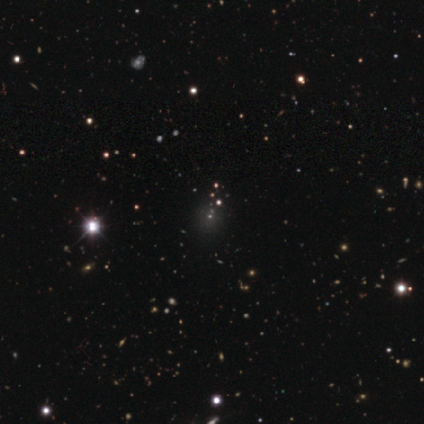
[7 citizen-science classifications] Smooth or featured?
  - star or artifact: 86% *
  - smooth: 14%
  - featured or disk: 0%